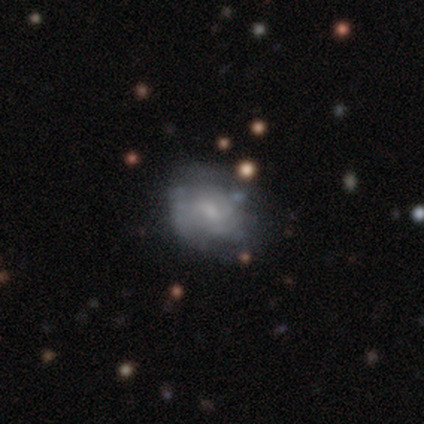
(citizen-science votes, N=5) Smooth or featured?
  - smooth: 60% *
  - featured or disk: 20%
  - star or artifact: 20%
How rounded?
  - round: 67% *
  - in between: 33%
  - cigar-shaped: 0%
Merging?
  - none: 50% * (tied)
  - merger: 50% * (tied)
  - minor disturbance: 0%
  - major disturbance: 0%